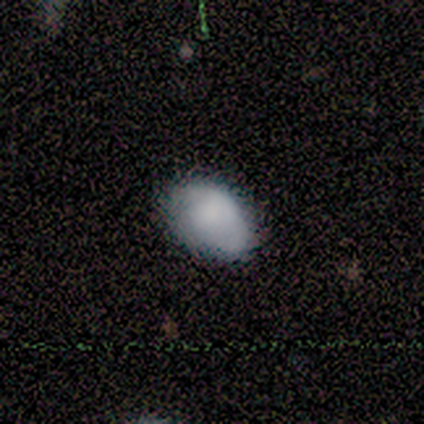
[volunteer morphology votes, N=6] This is clearly a smooth galaxy (83%). How rounded: clearly in between (100%). Merging: clearly none (80%).